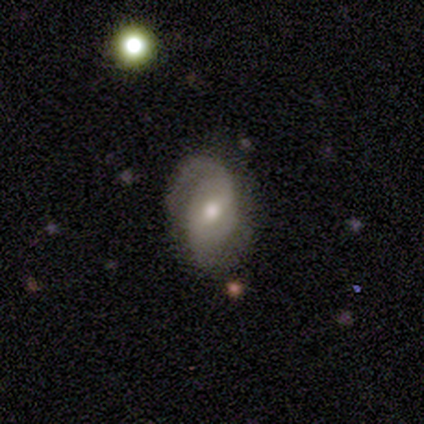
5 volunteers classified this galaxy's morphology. type=featured or disk (100%); edge-on=no (100%); bar=no (80%); spiral arms=yes (100%); winding=tight (40%, tied with medium); arm count=2 (60%); bulge=moderate (100%); merging=none (80%).